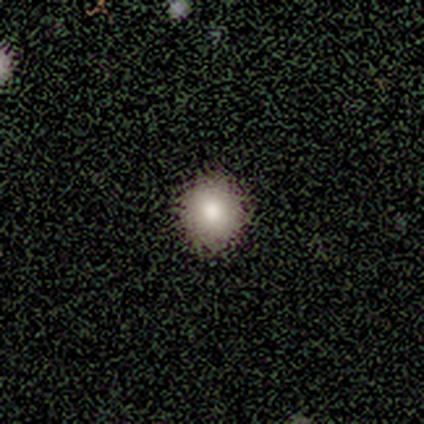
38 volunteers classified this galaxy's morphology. This appears to be a smooth galaxy with no disk features (87%) that is round (94%). Merging: none (72%).